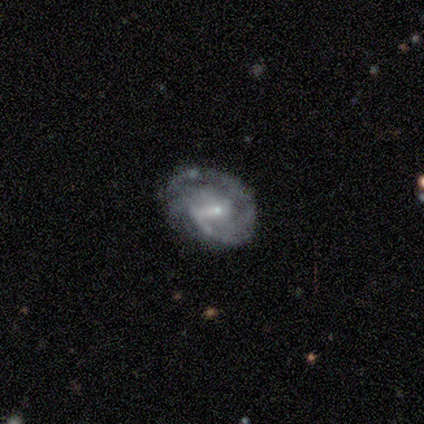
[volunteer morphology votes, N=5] Q: Smooth or featured?
A: featured or disk (80%); runner-up: smooth (20%)
Q: Edge-on disk?
A: no (100%)
Q: Bar?
A: weak (75%); runner-up: no (25%)
Q: Spiral arms?
A: yes (100%)
Q: Spiral winding?
A: medium (75%); runner-up: tight (25%)
Q: Spiral arm count?
A: 1 (50%); runner-up: 2 (25%)
Q: Bulge size?
A: small (75%); runner-up: moderate (25%)
Q: Merging?
A: minor disturbance (60%); runner-up: none (40%)